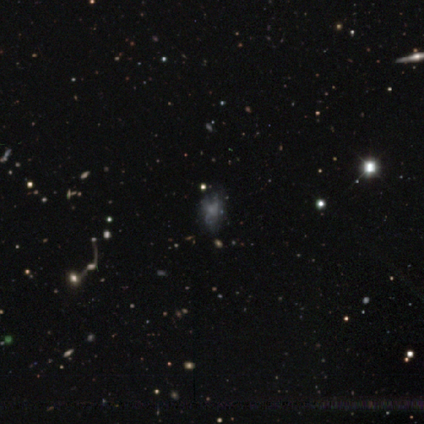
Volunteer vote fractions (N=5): This appears to be a featured or disk galaxy (60%) with no bar (100%), no spiral arms (100%) and a small central bulge (67%). Merging: major disturbance (75%).